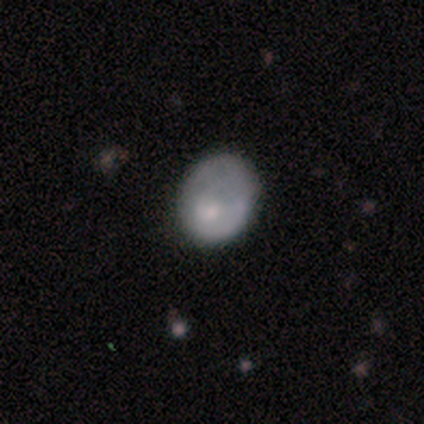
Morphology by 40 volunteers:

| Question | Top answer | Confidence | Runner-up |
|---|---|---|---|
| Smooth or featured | smooth | 62% | featured or disk (38%) |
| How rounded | round | 52% | in between (48%) |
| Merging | none | 45% | major disturbance (8%) |